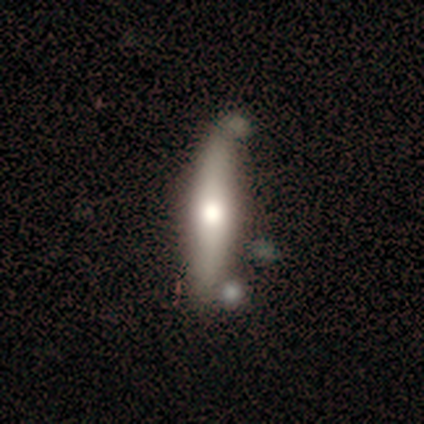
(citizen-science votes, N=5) Smooth or featured: smooth — 60% (featured or disk — 40%)
How rounded: cigar-shaped — 67% (in between — 33%)
Merging: none — 60% (minor disturbance — 20%)